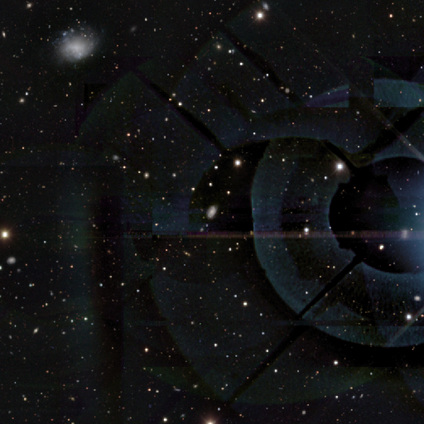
Overall: star or artifact (60%; smooth 40%).